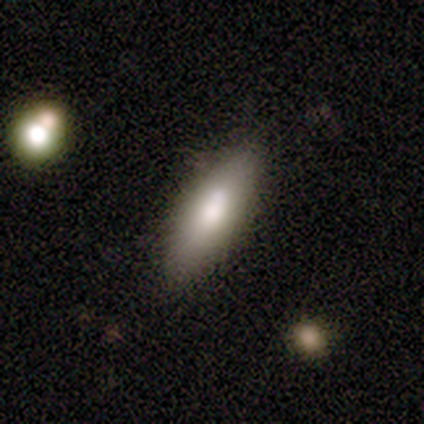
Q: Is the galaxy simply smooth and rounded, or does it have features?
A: smooth — 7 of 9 (78%).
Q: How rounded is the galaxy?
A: in between — 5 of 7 (71%).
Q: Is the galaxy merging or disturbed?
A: none — 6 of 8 (75%).